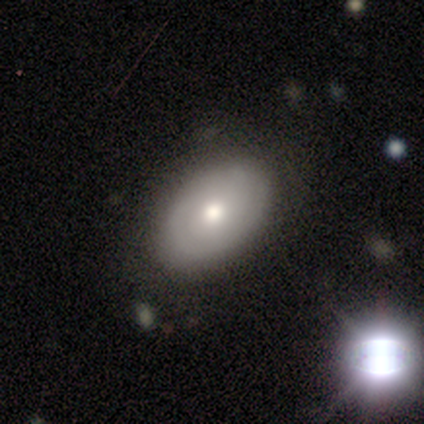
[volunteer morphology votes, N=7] A smooth galaxy with no disk features (71%) that is in between round and cigar-shaped (100%).

Vote fractions:
- Smooth or featured? smooth: 71% / featured or disk: 29% / star or artifact: 0%
- How rounded? in between: 100% / round: 0% / cigar-shaped: 0%
- Merging? none: 57% / minor disturbance: 29% / major disturbance: 14% / merger: 0%